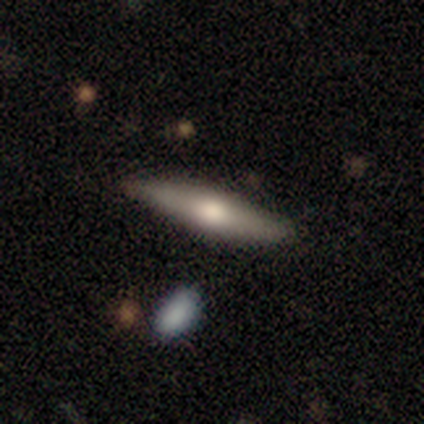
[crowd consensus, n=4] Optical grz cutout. It shows a featured or disk galaxy (100%) viewed edge-on (100%) with a rounded central bulge (100%). Merging: none (100%).